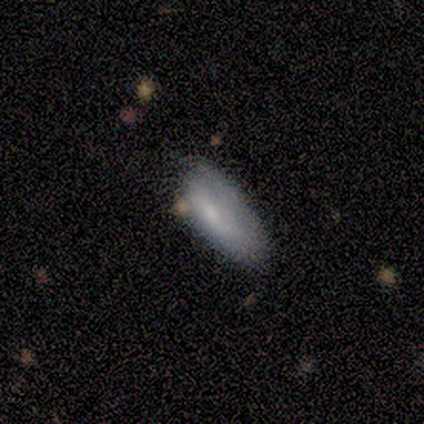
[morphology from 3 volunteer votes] Overall: smooth (67%; featured or disk 33%). How rounded: in between (100%). Merging: none (100%).